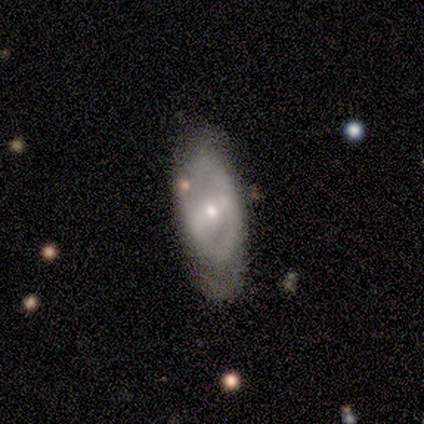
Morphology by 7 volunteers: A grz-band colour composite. It shows a featured or disk galaxy (86%) with a strong bar (50%), 2 (33%, tied with 3 and can't tell) loose (67%) spiral arms (50%, tied with no) and a moderate central bulge (50%, tied with small). Merging: none (43%, tied with minor disturbance).